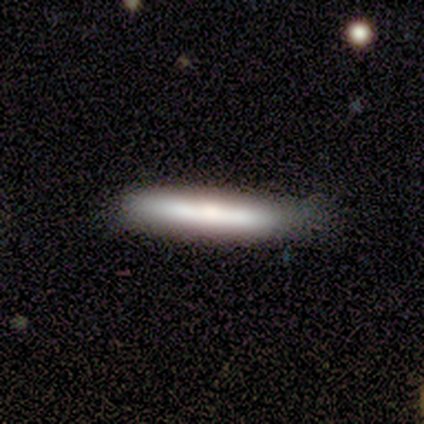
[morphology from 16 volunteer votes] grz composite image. It shows a smooth galaxy with no disk features (69%) that is cigar-shaped (91%). Merging: none (60%).